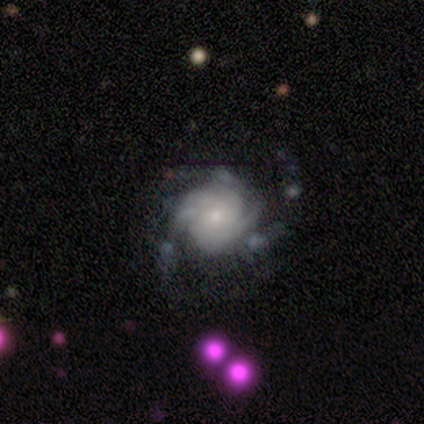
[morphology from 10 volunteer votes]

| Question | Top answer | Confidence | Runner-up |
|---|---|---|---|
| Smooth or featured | featured or disk | 80% | smooth (10%) |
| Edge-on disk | no | 100% | — |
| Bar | no | 100% | — |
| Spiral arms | yes | 100% | — |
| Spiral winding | tight | 75% | medium (25%) |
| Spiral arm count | can't tell | 50% | 2 (25%) |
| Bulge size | small | 75% | moderate (12%) |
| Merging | minor disturbance | 44% | major disturbance (33%) |